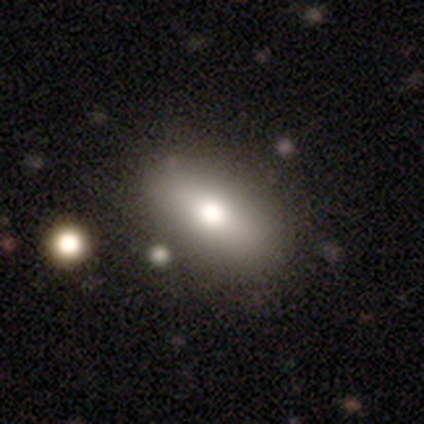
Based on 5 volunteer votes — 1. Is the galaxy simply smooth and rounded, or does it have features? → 80% smooth, 20% featured or disk, 0% star or artifact.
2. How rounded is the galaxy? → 75% in between, 25% round, 0% cigar-shaped.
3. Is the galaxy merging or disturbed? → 100% none, 0% minor disturbance, 0% major disturbance, 0% merger.